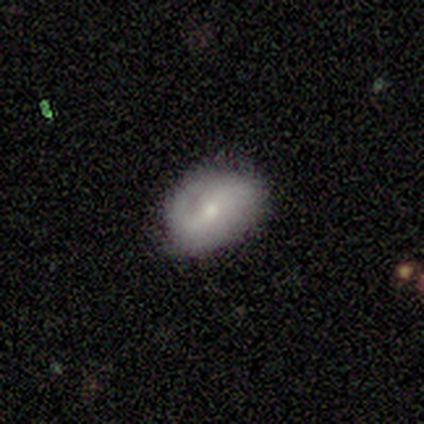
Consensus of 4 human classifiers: Smooth or featured? featured or disk (75%)
Edge-on disk? no (100%)
Bar? weak (100%)
Spiral arms? yes (67%)
Spiral winding? medium (50%, tied with loose)
Spiral arm count? 2 (100%)
Bulge size? moderate (67%)
Merging? none (75%)